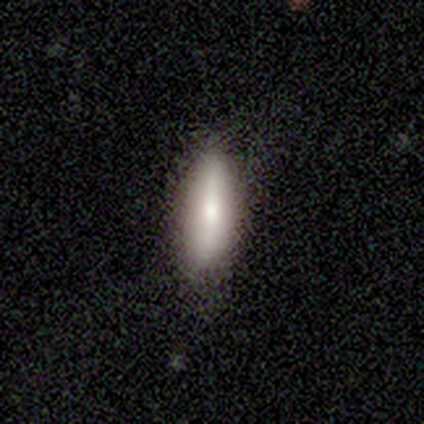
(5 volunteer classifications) smooth_or_featured: smooth (p=0.80) [alt: featured or disk p=0.20]
how_rounded: in between (p=0.50) [tied with: cigar-shaped p=0.50]
merging: none (p=0.80) [alt: minor disturbance p=0.20]